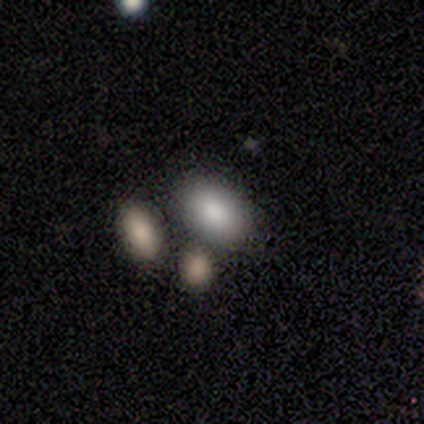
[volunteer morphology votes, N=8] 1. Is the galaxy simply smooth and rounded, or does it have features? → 88% smooth, 12% featured or disk, 0% star or artifact.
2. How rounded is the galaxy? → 100% in between, 0% round, 0% cigar-shaped.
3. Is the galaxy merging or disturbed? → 88% none, 12% minor disturbance, 0% major disturbance, 0% merger.